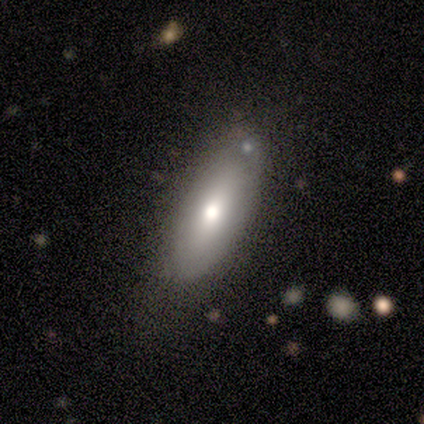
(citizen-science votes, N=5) Overall: smooth (60%; featured or disk 40%). How rounded: in between (100%). Merging: none (80%).